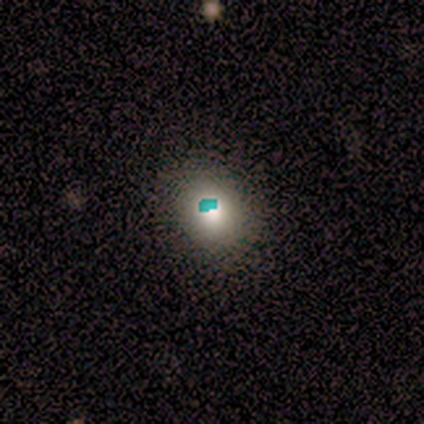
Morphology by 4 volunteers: Overall: star or artifact (75%).